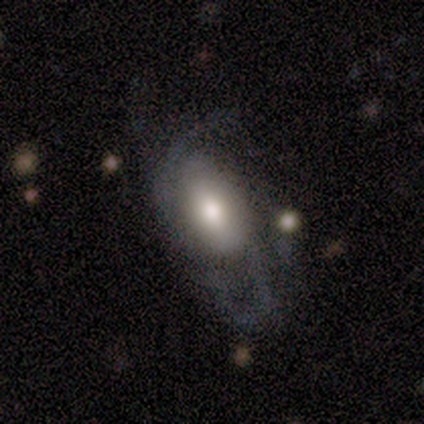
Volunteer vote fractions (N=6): Smooth or featured? featured or disk (100%)
Edge-on disk? no (83%)
Bar? no (60%)
Spiral arms? yes (100%)
Spiral winding? medium (40%, tied with loose)
Spiral arm count? 2 (40%, tied with 3)
Bulge size? large (60%)
Merging? none (50%)